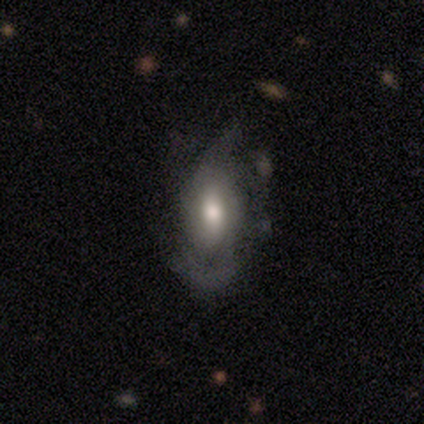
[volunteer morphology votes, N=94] Smooth or featured? 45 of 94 (48%) said featured or disk. Edge-on disk? 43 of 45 (96%) said no. Bar? 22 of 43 (51%) said no. Spiral arms? 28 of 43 (65%) said yes. Spiral winding? 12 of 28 (43%) said medium. Spiral arm count? 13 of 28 (46%, tied with can't tell) said 2. Bulge size? 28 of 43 (65%) said moderate. Merging? 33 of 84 (39%) said none.